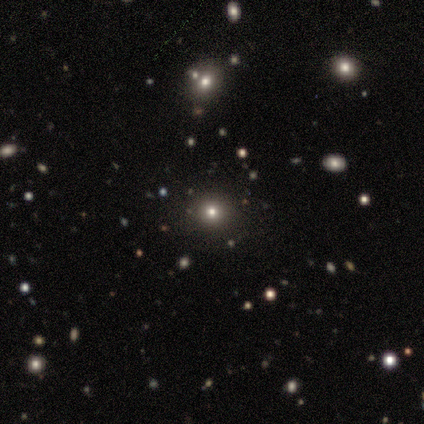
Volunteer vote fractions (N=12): Smooth or featured? smooth (67%)
How rounded? round (88%)
Merging? none (78%)